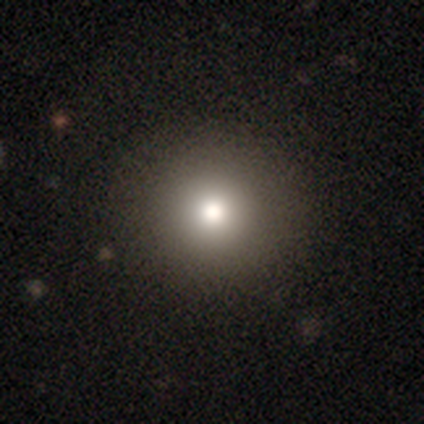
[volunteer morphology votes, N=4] smooth-or-featured: smooth: 100% | featured or disk: 0% | star or artifact: 0%
  how-rounded: round: 100% | in between: 0% | cigar-shaped: 0%
  merging: none: 75% | major disturbance: 25% | minor disturbance: 0% | merger: 0%